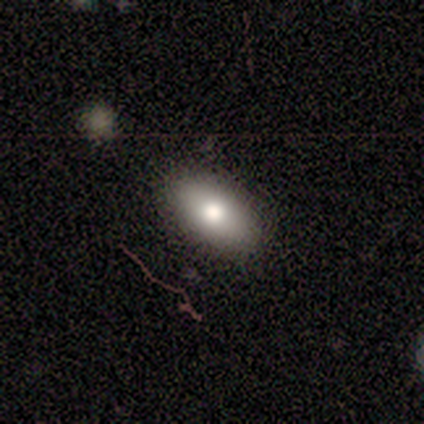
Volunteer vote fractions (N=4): smooth 75%, featured or disk 25%, star or artifact 0%. Down the decision tree: how rounded — in between (100%); merging — none (50%).